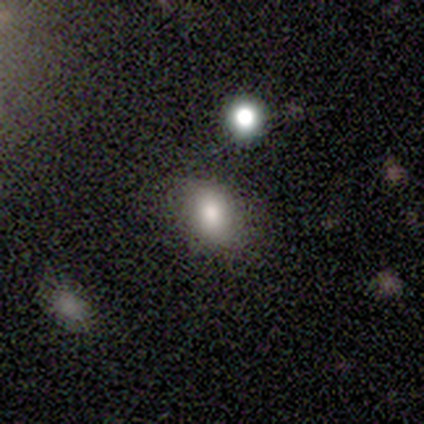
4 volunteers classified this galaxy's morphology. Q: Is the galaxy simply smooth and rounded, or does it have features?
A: smooth — 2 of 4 (50%).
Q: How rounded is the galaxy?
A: round — 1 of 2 (50%, tied with in between).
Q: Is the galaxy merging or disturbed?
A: none — 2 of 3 (67%).